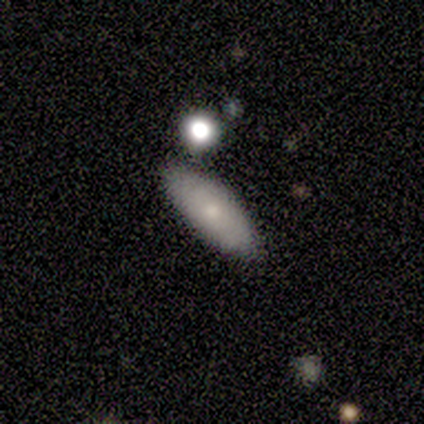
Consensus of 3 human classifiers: Volunteers were most divided on "smooth or featured" (3-way tie): smooth: 33%, featured or disk: 33%, star or artifact: 33%. More confident: how rounded — in between (100%); merging — none (100%).